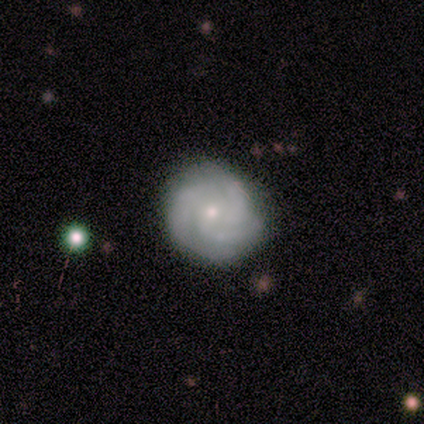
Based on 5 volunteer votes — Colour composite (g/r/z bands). It shows a featured or disk galaxy (100%) with no bar (80%), 3 (100%) tight (80%) spiral arms (100%) and a small central bulge (100%). Merging: none (100%).